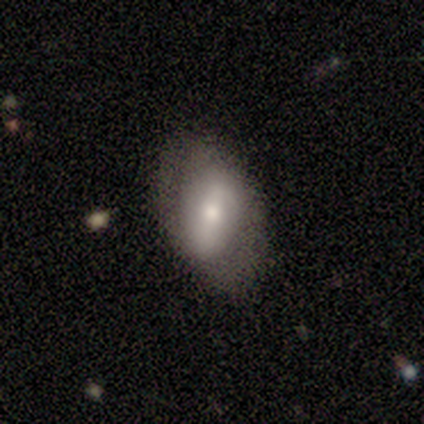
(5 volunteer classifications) smooth_or_featured: featured or disk (p=0.60) [alt: smooth p=0.40]
disk_edge_on: no (p=1.00)
bar: strong (p=0.67) [alt: weak p=0.33]
has_spiral_arms: no (p=1.00)
bulge_size: small (p=0.67) [alt: large p=0.33]
merging: none (p=0.80) [alt: minor disturbance p=0.20]